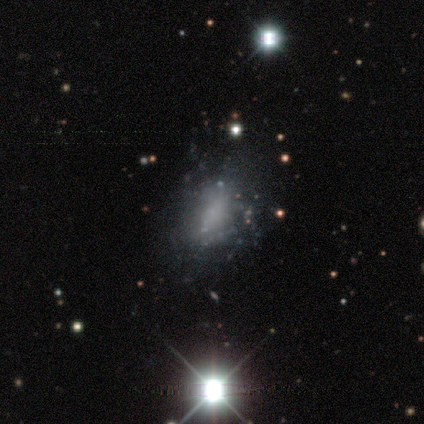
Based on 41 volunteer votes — Smooth or featured? featured or disk (54%)
Edge-on disk? no (95%)
Bar? no (95%)
Spiral arms? no (90%)
Bulge size? none (81%)
Merging? minor disturbance (44%)